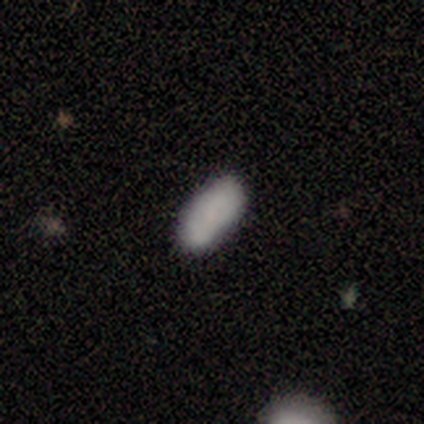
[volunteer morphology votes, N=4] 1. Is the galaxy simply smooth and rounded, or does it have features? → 100% smooth, 0% featured or disk, 0% star or artifact.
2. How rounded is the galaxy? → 75% in between, 25% cigar-shaped, 0% round.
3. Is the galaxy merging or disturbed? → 100% none, 0% minor disturbance, 0% major disturbance, 0% merger.